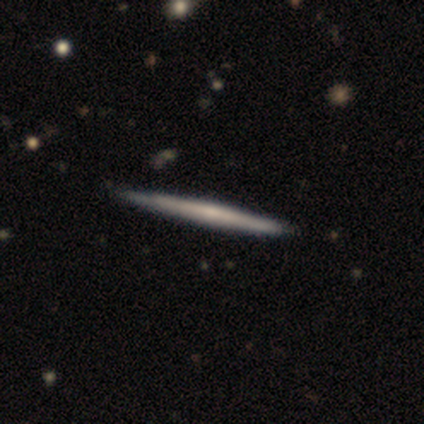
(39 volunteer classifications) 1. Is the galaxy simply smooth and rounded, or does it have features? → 64% featured or disk, 33% smooth, 3% star or artifact.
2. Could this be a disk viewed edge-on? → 100% yes, 0% no.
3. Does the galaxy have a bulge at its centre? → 68% none, 28% rounded, 4% boxy.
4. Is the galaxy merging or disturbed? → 84% none, 5% minor disturbance, 0% major disturbance, 0% merger.